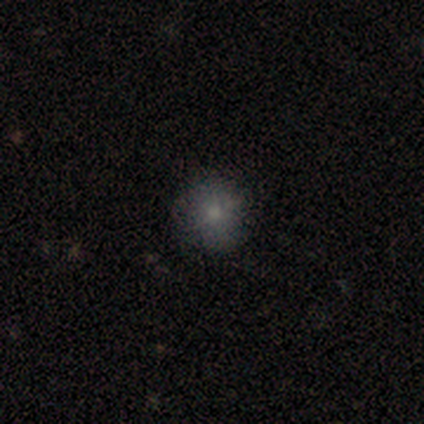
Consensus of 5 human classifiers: Smooth or featured?
  - smooth: 100% *
  - featured or disk: 0%
  - star or artifact: 0%
How rounded?
  - round: 100% *
  - in between: 0%
  - cigar-shaped: 0%
Merging?
  - none: 100% *
  - minor disturbance: 0%
  - major disturbance: 0%
  - merger: 0%